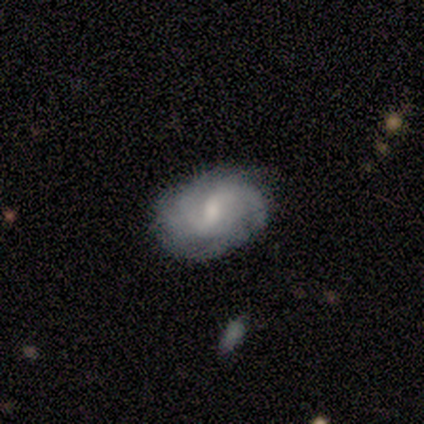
This appears to be a featured or disk galaxy (60%) with a weak bar (50%, tied with no), 2 (50%, tied with can't tell) tight (50%, tied with medium) spiral arms (100%) and a moderate central bulge (50%, tied with small). Merging: none (60%).